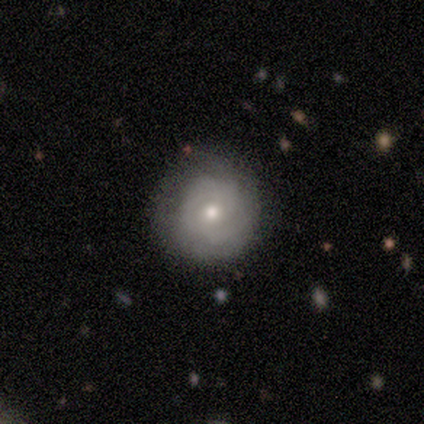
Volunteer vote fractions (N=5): This is clearly a featured or disk galaxy (80%). It is clearly not viewed edge-on (100%). Bar: possibly weak (50%, tied with no). Spiral arm pattern: likely yes (75%). Spiral arm count: marginally 2 (33%, tied with 3 and can't tell). Spiral winding: clearly tight (100%). Central bulge: likely moderate (75%). Merging: clearly none (100%).